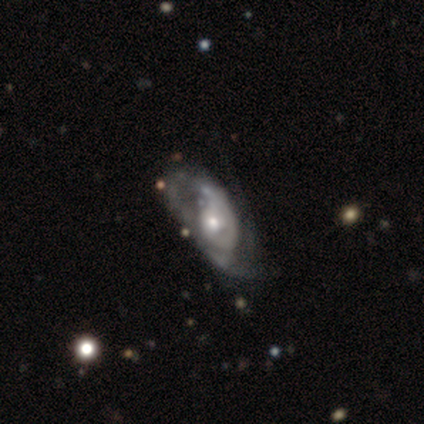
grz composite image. It shows a featured or disk galaxy (85%) with no bar (85%), 2 (43%) tight (53%) spiral arms (88%) and a moderate central bulge (56%). Merging: major disturbance (43%).